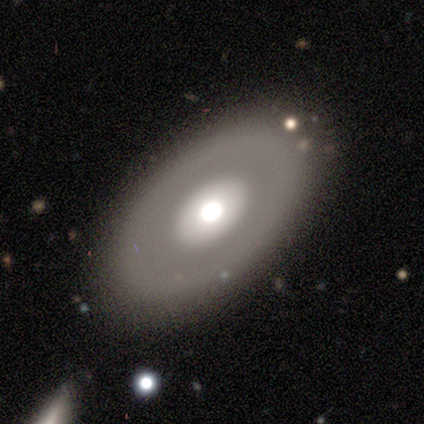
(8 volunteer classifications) Morphology: type=featured or disk (75%); edge-on=no (83%); bar=no (80%); spiral arms=no (100%); bulge=moderate (60%); merging=none (75%).